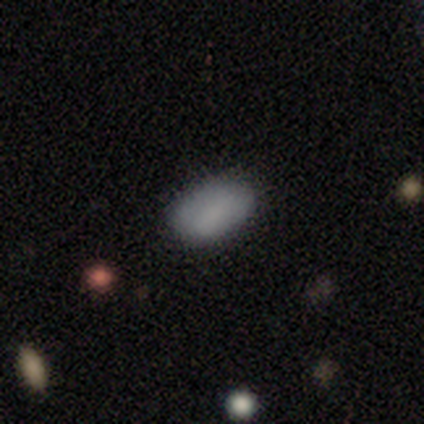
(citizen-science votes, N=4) Smooth or featured? smooth (75%)
How rounded? in between (67%)
Merging? none (100%)